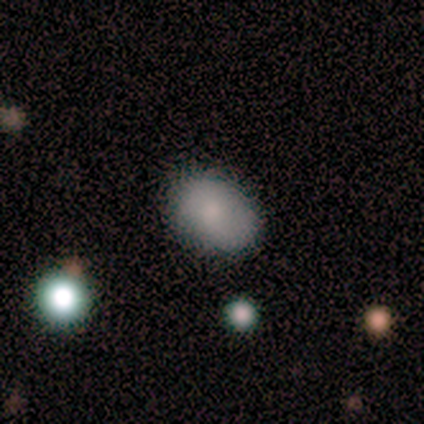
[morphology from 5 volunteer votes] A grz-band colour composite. It shows a smooth galaxy with no disk features (80%) that is in between round and cigar-shaped (100%). Merging: none (100%).